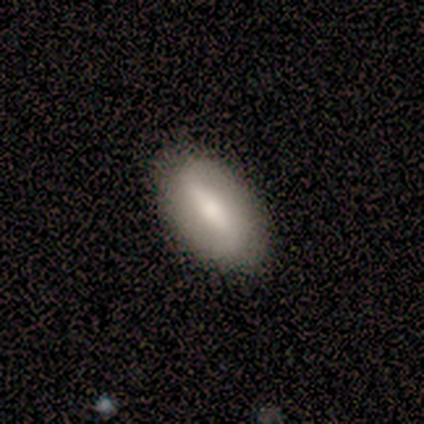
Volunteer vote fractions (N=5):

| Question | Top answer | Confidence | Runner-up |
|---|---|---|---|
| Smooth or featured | smooth | 80% | featured or disk (20%) |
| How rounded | in between | 100% | — |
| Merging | none | 60% | minor disturbance (20%) |